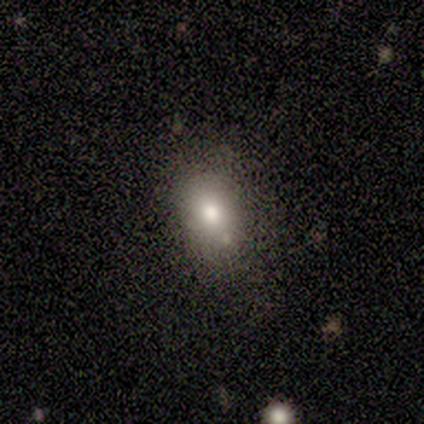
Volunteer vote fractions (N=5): Morphology: type=smooth (80%); roundness=in between (75%); merging=none (50%).